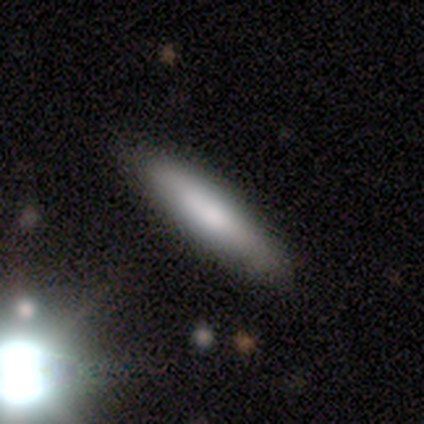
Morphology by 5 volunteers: type=smooth (100%); roundness=cigar-shaped (100%); merging=none (80%).